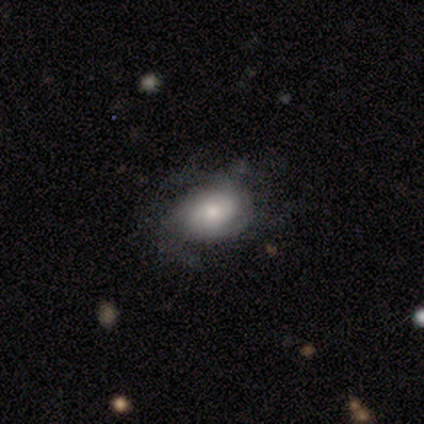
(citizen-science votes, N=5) This is likely a smooth galaxy (60%). How rounded: clearly in between (100%). Merging: likely none (60%).